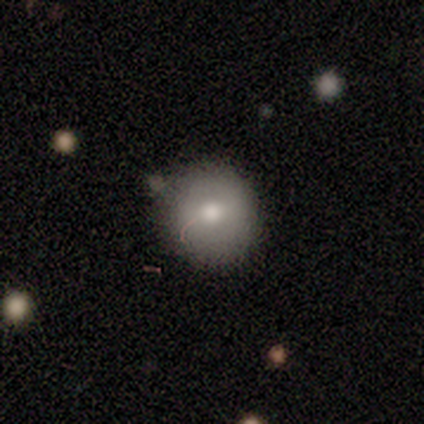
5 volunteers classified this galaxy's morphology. This appears to be a smooth galaxy with no disk features (80%) that is round (100%). Merging: none (80%).